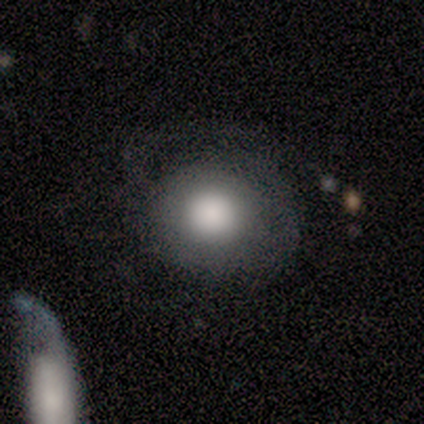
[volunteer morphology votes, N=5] Q: Smooth or featured?
A: featured or disk (60%); runner-up: smooth (20%)
Q: Edge-on disk?
A: no (100%)
Q: Bar?
A: no (100%)
Q: Spiral arms?
A: no (100%)
Q: Bulge size?
A: large (33%); tied with: moderate (33%); none (33%)
Q: Merging?
A: major disturbance (50%); runner-up: none (25%)